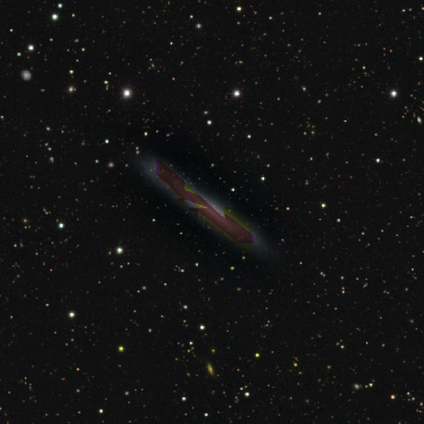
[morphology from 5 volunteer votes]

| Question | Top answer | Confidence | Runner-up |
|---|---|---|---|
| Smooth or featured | star or artifact | 80% | featured or disk (20%) |